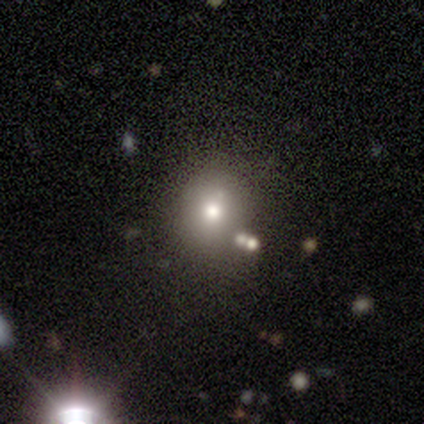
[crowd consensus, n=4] Smooth or featured? smooth (50%)
How rounded? in between (100%)
Merging? minor disturbance (67%)